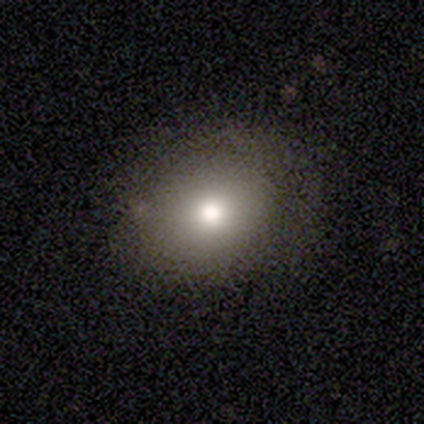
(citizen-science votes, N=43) A smooth galaxy with no disk features (77%) that is round (55%).

Vote fractions:
- Smooth or featured? smooth: 77% / featured or disk: 21% / star or artifact: 2%
- How rounded? round: 55% / in between: 45% / cigar-shaped: 0%
- Merging? none: 71% / minor disturbance: 24% / major disturbance: 5% / merger: 0%